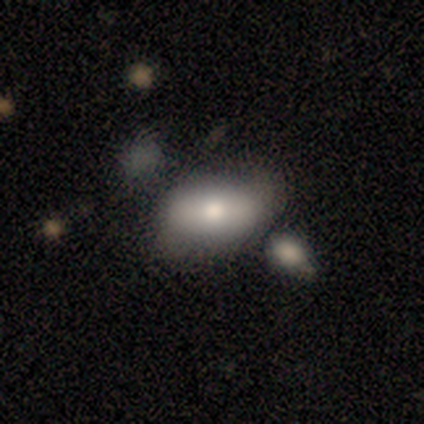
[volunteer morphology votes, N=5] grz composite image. It shows a smooth galaxy with no disk features (80%) that is in between round and cigar-shaped (100%). Merging: none (50%, tied with minor disturbance).